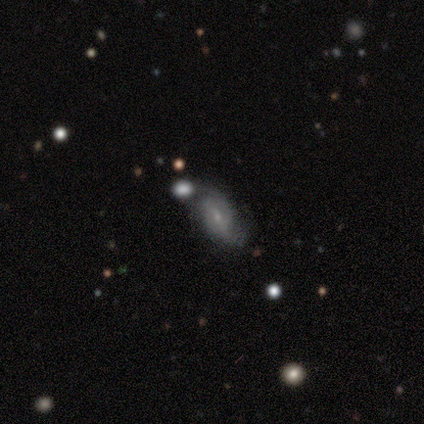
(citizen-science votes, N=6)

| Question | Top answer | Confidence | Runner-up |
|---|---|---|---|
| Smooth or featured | featured or disk | 83% | smooth (17%) |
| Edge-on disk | no | 100% | — |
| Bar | weak | 60% | no (40%) |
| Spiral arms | yes | 80% | no (20%) |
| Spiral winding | tight | 50% | medium (25%) |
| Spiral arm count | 2 | 75% | can't tell (25%) |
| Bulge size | small | 60% | moderate (40%) |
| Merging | none | 83% | major disturbance (17%) |